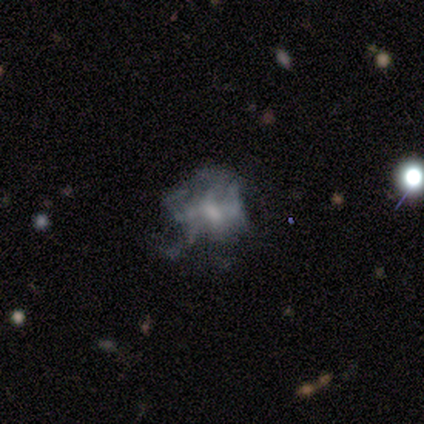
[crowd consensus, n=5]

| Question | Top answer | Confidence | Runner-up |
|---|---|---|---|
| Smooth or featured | featured or disk | 60% | smooth (20%) |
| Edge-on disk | no | 100% | — |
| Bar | no | 67% | weak (33%) |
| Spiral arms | no | 67% | yes (33%) |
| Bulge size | small | 100% | — |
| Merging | none | 50% | minor disturbance (25%) |